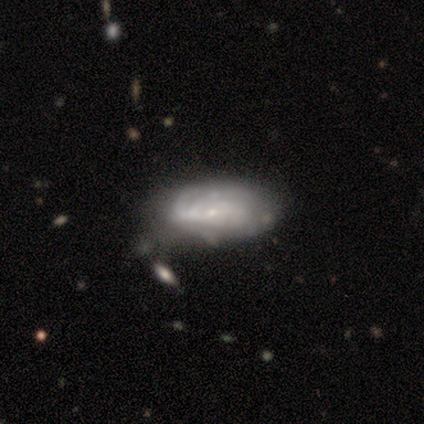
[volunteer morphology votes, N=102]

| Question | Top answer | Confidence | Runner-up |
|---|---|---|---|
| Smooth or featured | featured or disk | 62% | smooth (34%) |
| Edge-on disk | no | 95% | yes (5%) |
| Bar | no | 67% | weak (30%) |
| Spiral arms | yes | 75% | no (25%) |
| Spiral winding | tight | 82% | medium (18%) |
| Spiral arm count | can't tell | 62% | 2 (16%) |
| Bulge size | small | 77% | moderate (15%) |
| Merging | minor disturbance | 41% | none (39%) |